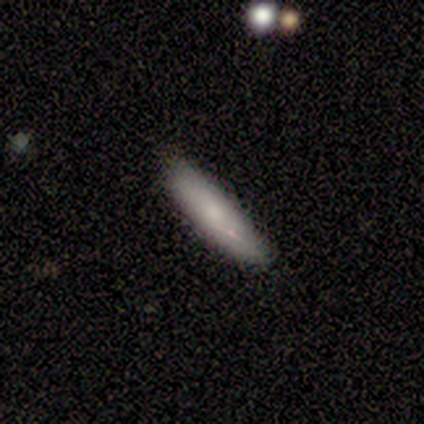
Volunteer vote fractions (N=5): A smooth galaxy with no disk features (80%) that is in between round and cigar-shaped (50%, tied with cigar-shaped). Merging: none (60%).